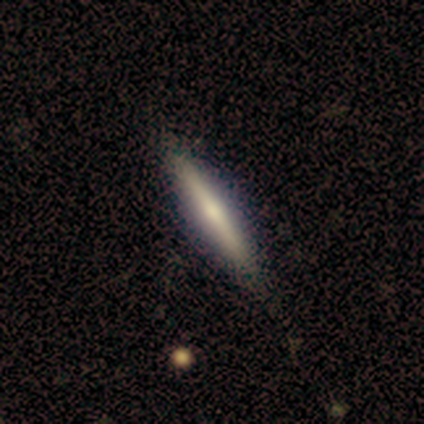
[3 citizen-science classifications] A featured or disk galaxy (100%) viewed edge-on (100%) with a rounded central bulge (100%). Merging: none (100%).